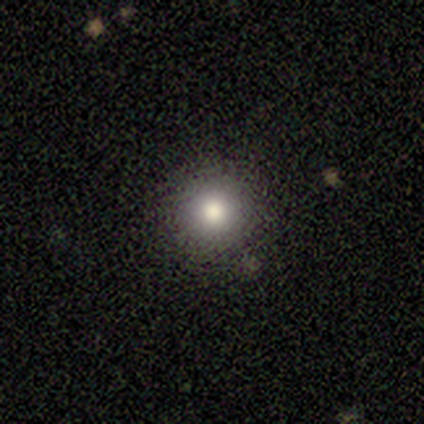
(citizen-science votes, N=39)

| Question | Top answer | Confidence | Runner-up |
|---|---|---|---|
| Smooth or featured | smooth | 72% | star or artifact (15%) |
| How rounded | round | 100% | — |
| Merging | none | 88% | minor disturbance (9%) |